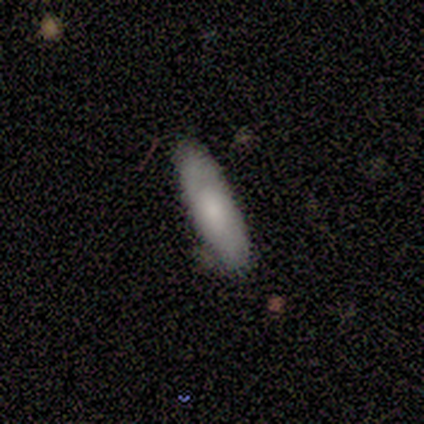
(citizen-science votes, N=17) Smooth or featured?
  - smooth: 82% *
  - featured or disk: 12%
  - star or artifact: 6%
How rounded?
  - in between: 64% *
  - cigar-shaped: 36%
  - round: 0%
Merging?
  - none: 69% *
  - minor disturbance: 25%
  - merger: 6%
  - major disturbance: 0%